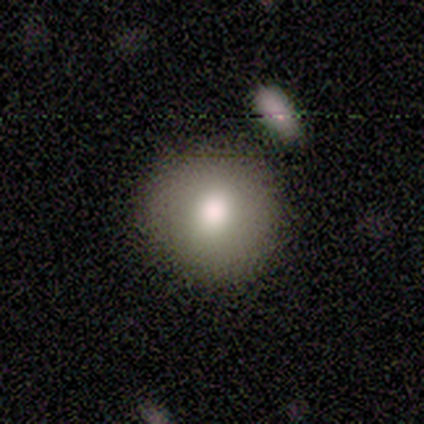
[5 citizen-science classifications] Volunteers were most divided on "smooth or featured": smooth: 80%, star or artifact: 20%, featured or disk: 0%. More confident: how rounded — round (100%); merging — none (100%).